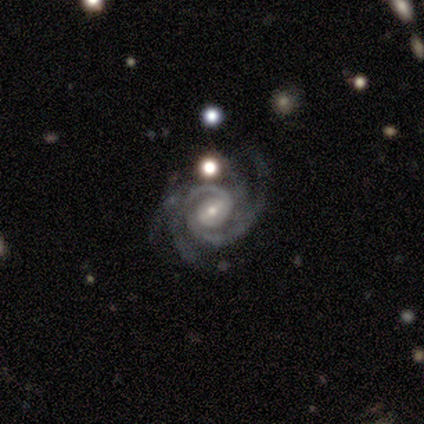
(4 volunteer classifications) featured or disk 100%, smooth 0%, star or artifact 0%. Down the decision tree: edge-on disk — no (100%); bar — strong (50%, tied with weak); spiral arms — yes (100%); spiral arm count — 4 (50%); spiral winding — tight (75%); bulge size — small (75%); merging — none (75%).